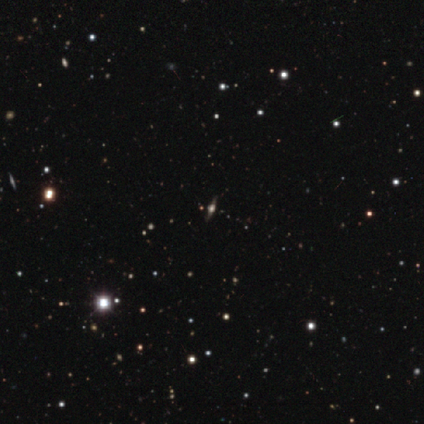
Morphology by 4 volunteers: Smooth or featured? featured or disk (75%)
Edge-on disk? yes (67%)
Edge-on bulge? rounded (100%)
Merging? none (100%)